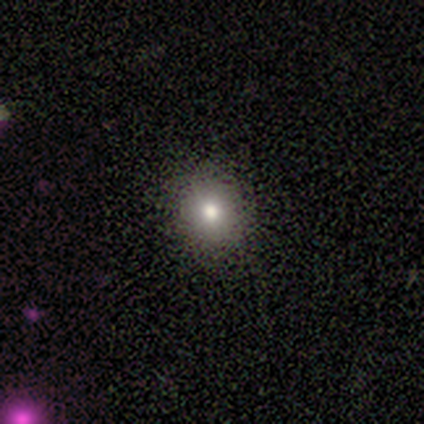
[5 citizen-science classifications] A smooth galaxy with no disk features (100%) that is round (100%).

Vote fractions:
- Smooth or featured? smooth: 100% / featured or disk: 0% / star or artifact: 0%
- How rounded? round: 100% / in between: 0% / cigar-shaped: 0%
- Merging? none: 80% / minor disturbance: 20% / major disturbance: 0% / merger: 0%